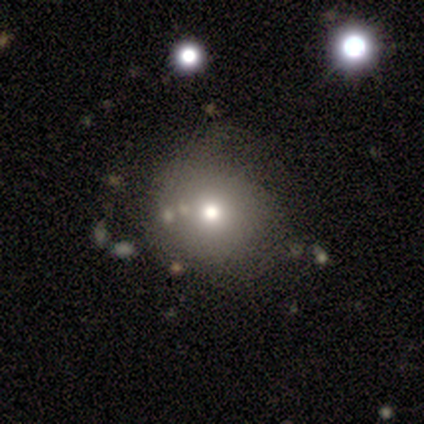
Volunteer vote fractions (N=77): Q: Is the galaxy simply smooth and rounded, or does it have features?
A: smooth — 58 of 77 (75%).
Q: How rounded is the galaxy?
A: round — 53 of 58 (91%).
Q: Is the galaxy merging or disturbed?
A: none — 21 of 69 (30%).